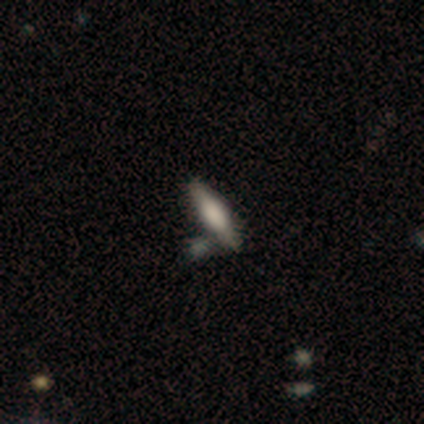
smooth_or_featured: featured or disk (p=0.80) [alt: smooth p=0.20]
disk_edge_on: yes (p=0.75) [alt: no p=0.25]
edge_on_bulge: boxy (p=0.67) [alt: rounded p=0.33]
merging: none (p=0.80) [alt: major disturbance p=0.20]